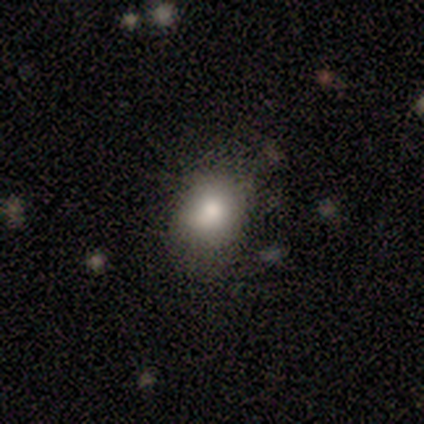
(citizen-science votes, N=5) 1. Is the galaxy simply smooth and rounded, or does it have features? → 100% smooth, 0% featured or disk, 0% star or artifact.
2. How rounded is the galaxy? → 80% round, 20% in between, 0% cigar-shaped.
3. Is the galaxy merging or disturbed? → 60% none, 40% minor disturbance, 0% major disturbance, 0% merger.